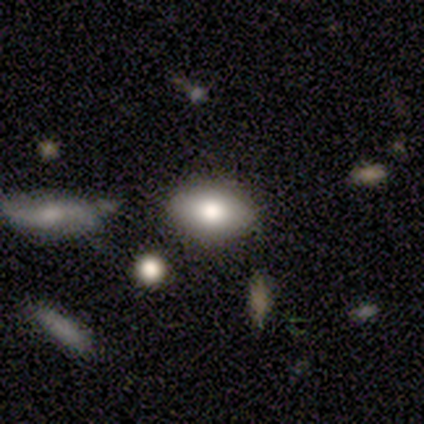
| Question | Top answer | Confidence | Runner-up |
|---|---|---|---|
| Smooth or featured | smooth | 72% | featured or disk (21%) |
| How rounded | in between | 96% | round (4%) |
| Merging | none | 86% | minor disturbance (11%) |